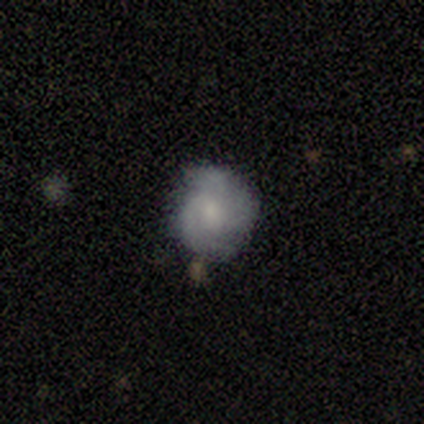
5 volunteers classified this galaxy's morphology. Volunteers were most divided on "spiral arm count" (3-way tie): 2: 33%, 3: 33%, can't tell: 33%, 1: 0%, 4: 0%, more than 4: 0%; "bulge size" (3-way tie): large: 33%, small: 33%, none: 33%, dominant: 0%, moderate: 0%. More confident: edge-on disk — no (100%); spiral arms — yes (100%); merging — none (75%); bar — no (67%); spiral winding — tight (67%); smooth or featured — featured or disk (60%).